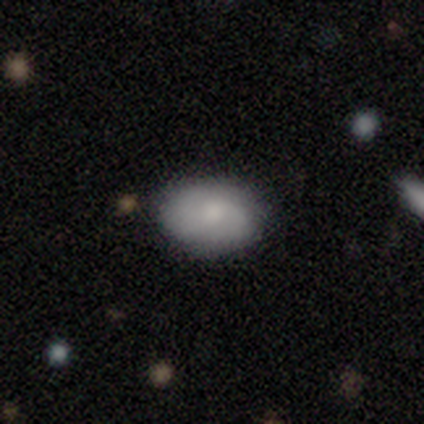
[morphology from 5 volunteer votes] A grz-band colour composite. It shows a smooth galaxy with no disk features (60%) that is in between round and cigar-shaped (67%). Merging: none (60%).